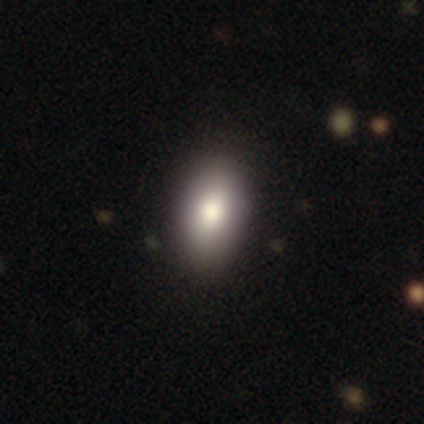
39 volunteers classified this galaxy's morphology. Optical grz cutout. It shows a smooth galaxy with no disk features (74%) that is in between round and cigar-shaped (93%). Merging: none (81%).